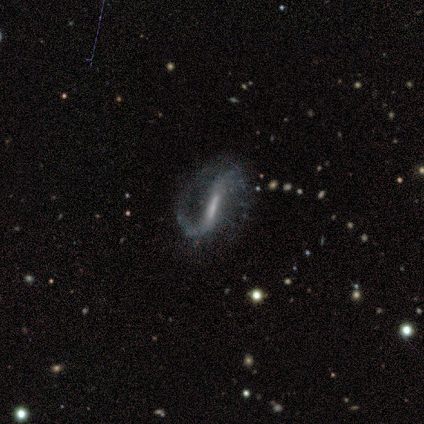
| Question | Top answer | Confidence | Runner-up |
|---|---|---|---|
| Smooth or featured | featured or disk | 100% | — |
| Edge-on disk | no | 100% | — |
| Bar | strong | 100% | — |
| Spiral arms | yes | 100% | — |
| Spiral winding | loose | 80% | medium (20%) |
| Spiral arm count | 2 | 80% | 1 (20%) |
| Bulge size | moderate | 40% | tied: none (40%) |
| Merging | minor disturbance | 60% | none (40%) |